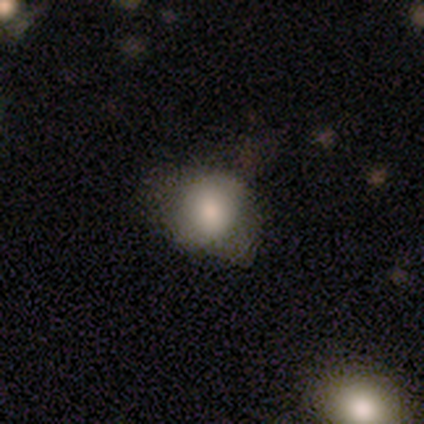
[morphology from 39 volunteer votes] Volunteers were most divided on "merging": none: 50%, minor disturbance: 44%, major disturbance: 6%, merger: 0%. More confident: smooth or featured — smooth (74%); how rounded — round (69%).